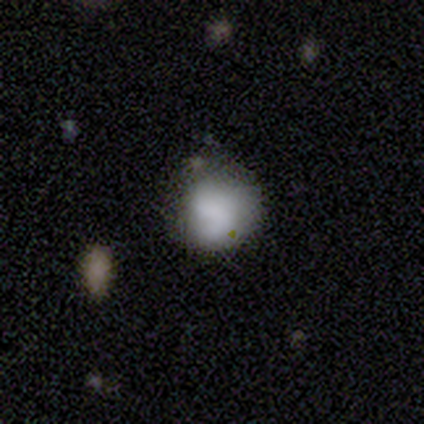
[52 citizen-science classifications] Smooth or featured?
  - smooth: 65% *
  - featured or disk: 29%
  - star or artifact: 6%
How rounded?
  - round: 79% *
  - in between: 21%
  - cigar-shaped: 0%
Merging?
  - none: 53% *
  - minor disturbance: 39%
  - merger: 6%
  - major disturbance: 2%